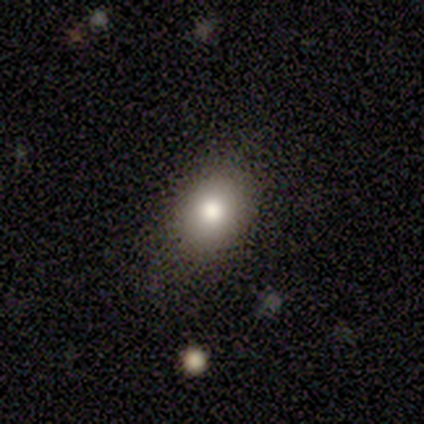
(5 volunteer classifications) This appears to be a smooth galaxy with no disk features (100%) that is in between round and cigar-shaped (60%). Merging: none (100%).